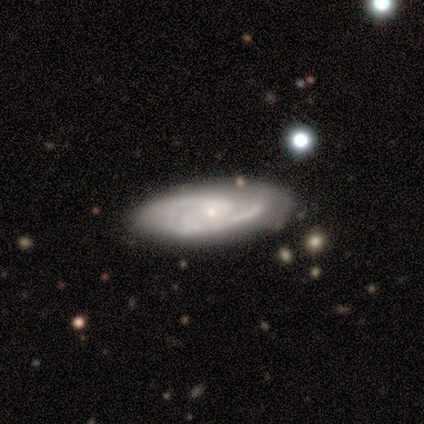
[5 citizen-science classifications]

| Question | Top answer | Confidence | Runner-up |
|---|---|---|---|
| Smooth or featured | featured or disk | 80% | smooth (20%) |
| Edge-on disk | no | 100% | — |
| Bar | weak | 50% | tied: no (50%) |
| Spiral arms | yes | 75% | no (25%) |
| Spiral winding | medium | 100% | — |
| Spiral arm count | can't tell | 67% | 3 (33%) |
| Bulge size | small | 100% | — |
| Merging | none | 60% | major disturbance (20%) |